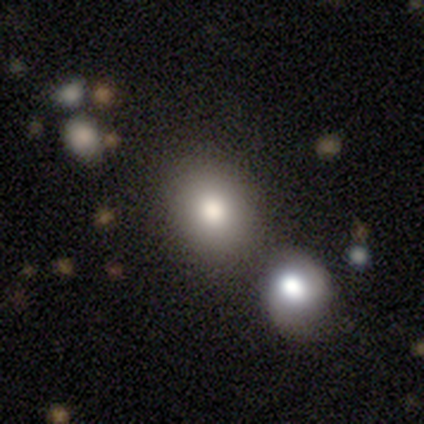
smooth-or-featured: smooth: 50% (tied) | featured or disk: 50% (tied) | star or artifact: 0%
  how-rounded: round: 100% | in between: 0% | cigar-shaped: 0%
  merging: none: 75% | merger: 25% | minor disturbance: 0% | major disturbance: 0%